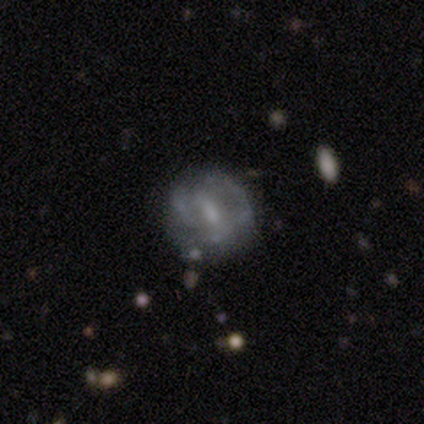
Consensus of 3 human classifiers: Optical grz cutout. It shows a smooth galaxy with no disk features (67%) that is round (50%, tied with in between). Merging: none (67%).